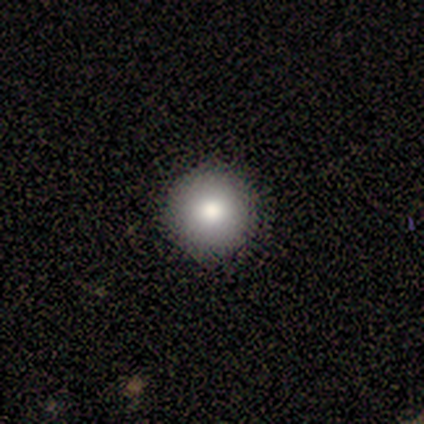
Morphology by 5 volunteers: type=smooth (80%); roundness=round (100%); merging=none (75%).